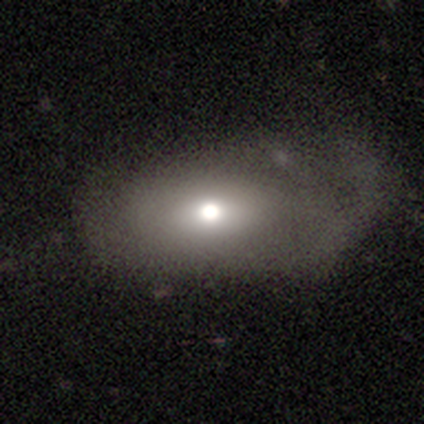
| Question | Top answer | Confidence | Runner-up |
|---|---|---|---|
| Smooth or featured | smooth | 80% | featured or disk (20%) |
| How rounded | in between | 75% | round (25%) |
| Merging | none | 60% | minor disturbance (20%) |